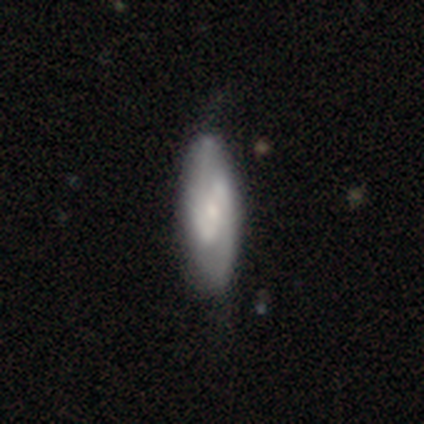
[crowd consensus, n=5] This is likely a featured or disk galaxy (60%). It is clearly not viewed edge-on (100%). Bar: likely strong (67%). Spiral arm pattern: likely yes (67%). Spiral arm count: clearly 2 (100%). Spiral winding: clearly medium (100%). Central bulge: likely moderate (67%). Merging: likely minor disturbance (60%).